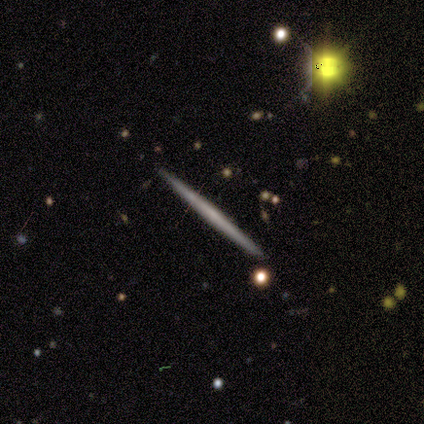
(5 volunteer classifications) Volunteers were most divided on "smooth or featured": featured or disk: 60%, smooth: 40%, star or artifact: 0%. More confident: edge-on disk — yes (100%); edge-on bulge — none (100%); merging — none (100%).